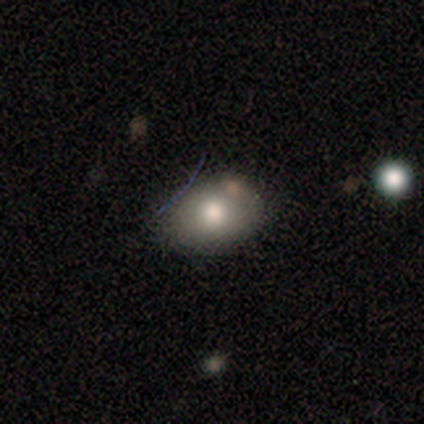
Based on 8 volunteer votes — Smooth or featured: smooth — 75% (featured or disk — 12%)
How rounded: in between — 83% (round — 17%)
Merging: none — 71% (minor disturbance — 29%)